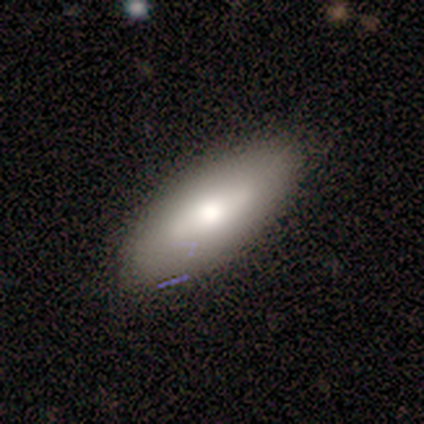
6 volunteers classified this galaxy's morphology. Smooth or featured: smooth — 50% (featured or disk — 33%)
How rounded: in between — 100%
Merging: none — 60% (minor disturbance — 40%)